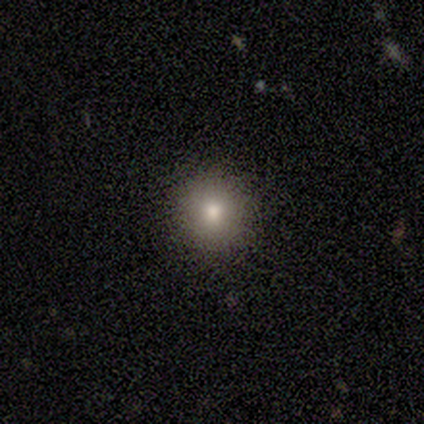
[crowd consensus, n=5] This appears to be a smooth galaxy with no disk features (80%) that is round (100%). Merging: none (100%).